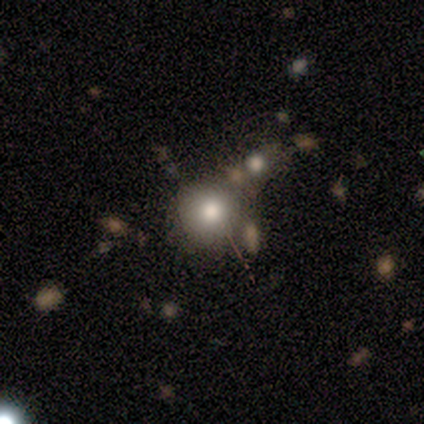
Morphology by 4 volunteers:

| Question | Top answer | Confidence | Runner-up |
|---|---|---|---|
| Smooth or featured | smooth | 50% | tied: star or artifact (50%) |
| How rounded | round | 100% | — |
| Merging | none | 100% | — |